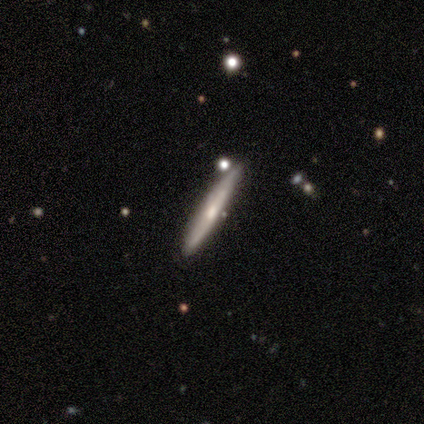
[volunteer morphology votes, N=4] Smooth or featured? 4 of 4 (100%) said featured or disk. Edge-on disk? 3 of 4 (75%) said yes. Edge-on bulge? 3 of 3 (100%) said none. Merging? 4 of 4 (100%) said none.